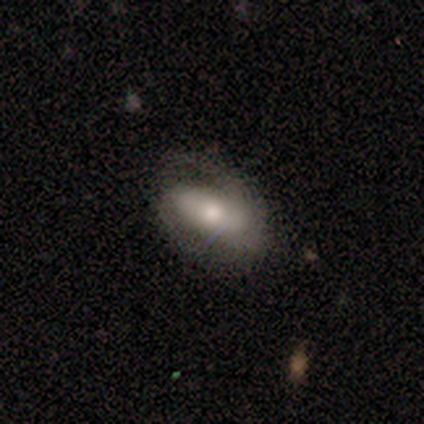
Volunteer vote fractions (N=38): Overall: featured or disk (55%; smooth 42%). Edge-on disk: no (86%). Bar: weak (44%; no 39%). Spiral arms: yes (78%). Spiral arm count: 2 (50%; can't tell 29%). Spiral winding: tight (43%; medium 36%). Bulge size: moderate (50%; small 28%). Merging: none (65%).